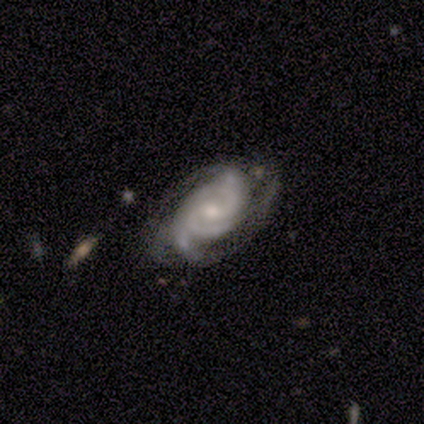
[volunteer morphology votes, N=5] Overall: featured or disk (100%). Edge-on disk: no (100%). Bar: no (60%; strong 20%). Spiral arms: yes (100%). Spiral arm count: 3 (60%; 2 40%). Spiral winding: tight (40%, tied with medium). Bulge size: moderate (60%; small 40%). Merging: none (80%).